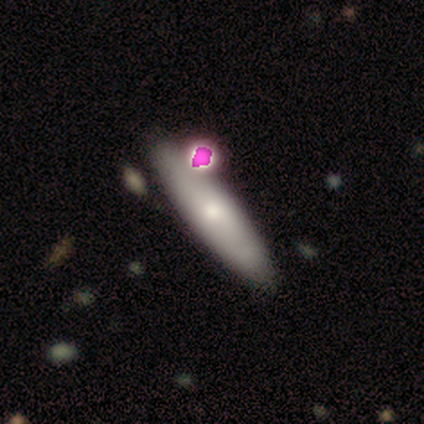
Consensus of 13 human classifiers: smooth-or-featured: smooth: 54% | featured or disk: 31% | star or artifact: 15%
  how-rounded: cigar-shaped: 57% | in between: 43% | round: 0%
  merging: none: 73% | major disturbance: 18% | merger: 9% | minor disturbance: 0%